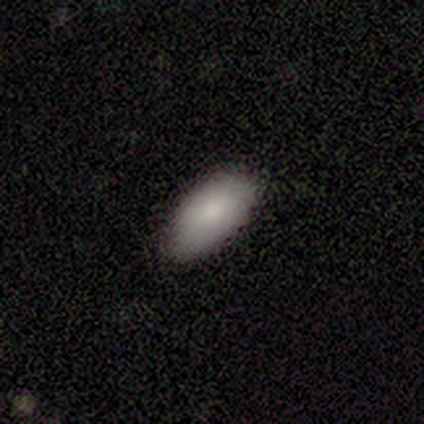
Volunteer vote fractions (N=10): smooth_or_featured: smooth (p=0.90) [alt: featured or disk p=0.10]
how_rounded: in between (p=1.00)
merging: none (p=0.80) [alt: minor disturbance p=0.20]